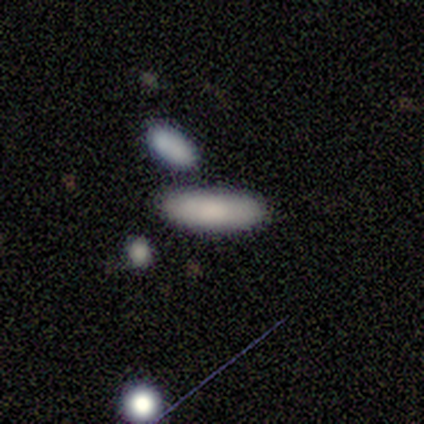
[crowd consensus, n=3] smooth-or-featured: smooth: 67% | featured or disk: 33% | star or artifact: 0%
  how-rounded: cigar-shaped: 100% | round: 0% | in between: 0%
  merging: none: 67% | merger: 33% | minor disturbance: 0% | major disturbance: 0%